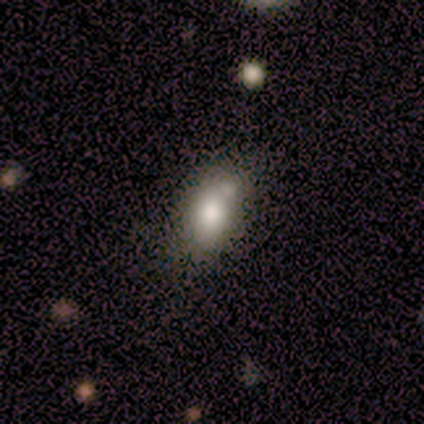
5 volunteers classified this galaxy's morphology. Smooth or featured? 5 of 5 (100%) said smooth. How rounded? 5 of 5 (100%) said in between. Merging? 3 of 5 (60%) said none.